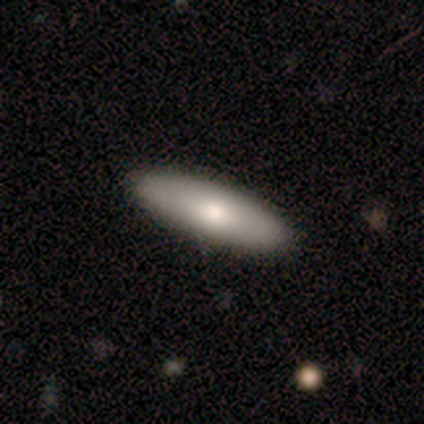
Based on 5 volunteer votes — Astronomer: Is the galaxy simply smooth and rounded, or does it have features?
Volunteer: featured or disk — 60% (runner-up: smooth, 40%).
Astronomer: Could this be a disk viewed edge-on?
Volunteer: no — 67%.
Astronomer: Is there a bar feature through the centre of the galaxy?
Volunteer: weak — 50%, tied with no at 50%.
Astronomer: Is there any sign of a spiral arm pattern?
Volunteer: no — 100%.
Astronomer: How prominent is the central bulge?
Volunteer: moderate — 100%.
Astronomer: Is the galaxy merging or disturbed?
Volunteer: none — 100%.